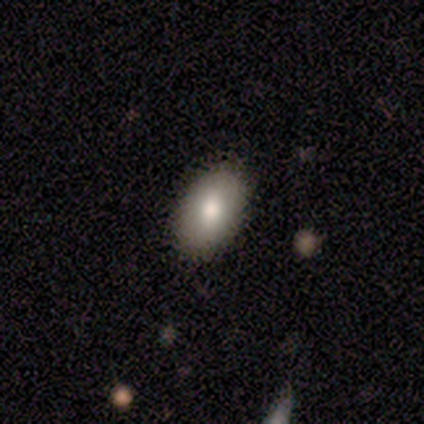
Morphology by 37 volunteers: smooth-or-featured: smooth: 73% | featured or disk: 14% | star or artifact: 14%
  how-rounded: in between: 93% | round: 7% | cigar-shaped: 0%
  merging: none: 88% | minor disturbance: 12% | major disturbance: 0% | merger: 0%